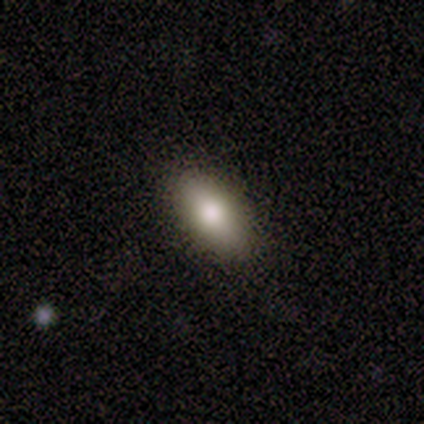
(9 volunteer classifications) Smooth or featured? smooth (78%)
How rounded? in between (86%)
Merging? none (100%)